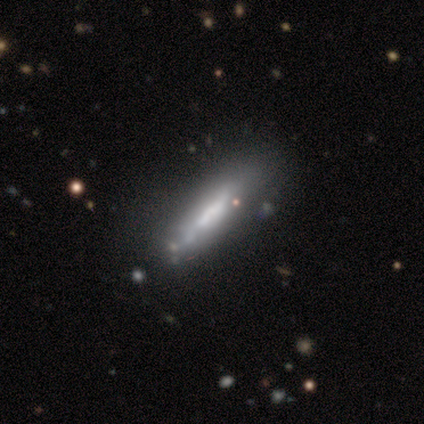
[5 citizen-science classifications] Q: Smooth or featured?
A: featured or disk (60%); runner-up: smooth (40%)
Q: Edge-on disk?
A: no (67%); runner-up: yes (33%)
Q: Bar?
A: no (100%)
Q: Spiral arms?
A: no (100%)
Q: Bulge size?
A: small (50%); tied with: none (50%)
Q: Merging?
A: none (60%); runner-up: minor disturbance (20%)